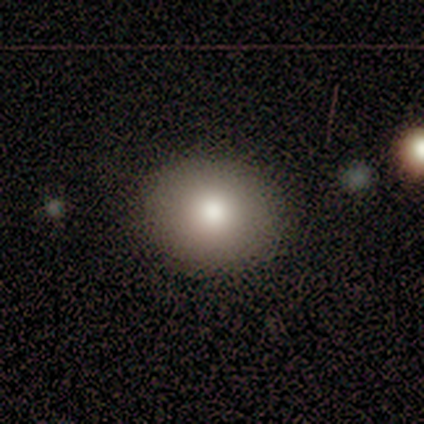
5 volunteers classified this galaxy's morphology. Smooth or featured? 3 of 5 (60%) said smooth. How rounded? 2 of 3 (67%) said round. Merging? 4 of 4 (100%) said none.